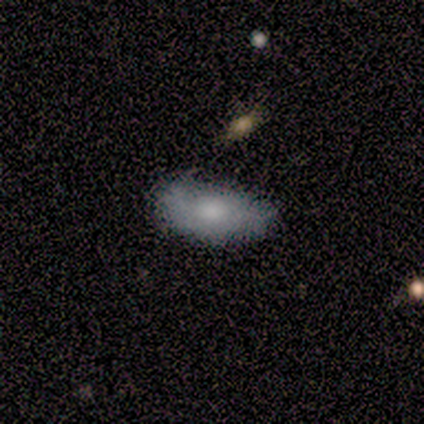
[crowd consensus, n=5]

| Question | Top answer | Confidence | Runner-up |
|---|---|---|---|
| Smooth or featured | smooth | 100% | — |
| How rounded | in between | 100% | — |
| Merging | none | 80% | minor disturbance (20%) |